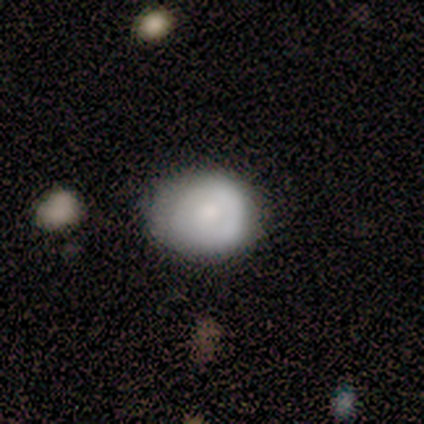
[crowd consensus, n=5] smooth-or-featured: featured or disk: 60% | smooth: 40% | star or artifact: 0%
  disk-edge-on: no: 100% | yes: 0%
    bar: no: 100% | strong: 0% | weak: 0%
    has-spiral-arms: no: 67% | yes: 33%
    bulge-size: large: 67% | moderate: 33% | dominant: 0% | small: 0% | none: 0%
  merging: none: 80% | minor disturbance: 20% | major disturbance: 0% | merger: 0%